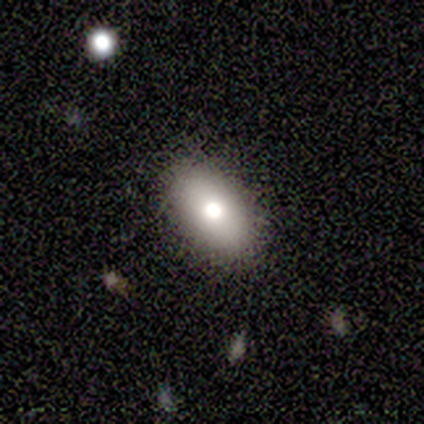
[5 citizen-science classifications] Overall: smooth (80%). How rounded: in between (100%). Merging: none (100%).